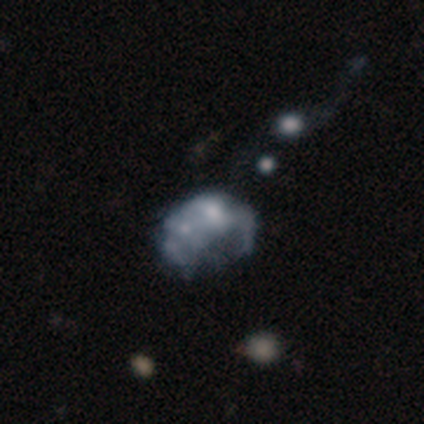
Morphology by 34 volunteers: featured or disk 56%, star or artifact 26%, smooth 18%. Down the decision tree: edge-on disk — no (95%); bar — no (89%); spiral arms — no (94%); bulge size — moderate (39%); merging — major disturbance (36%).